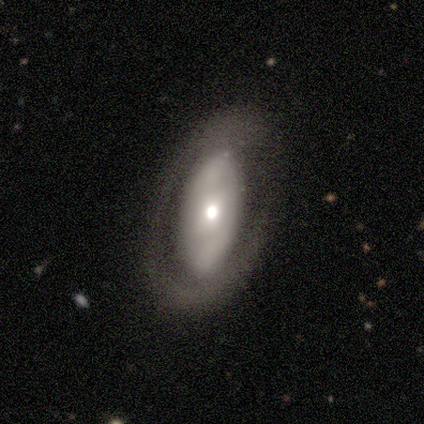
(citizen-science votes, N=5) Smooth or featured? 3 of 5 (60%) said featured or disk. Edge-on disk? 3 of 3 (100%) said no. Bar? 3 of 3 (100%) said no. Spiral arms? 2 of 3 (67%) said no. Bulge size? 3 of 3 (100%) said moderate. Merging? 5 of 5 (100%) said none.